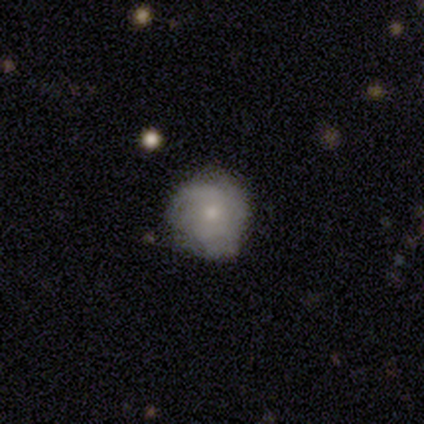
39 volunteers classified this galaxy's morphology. A featured or disk galaxy (49%) with no bar (79%), tight (60%) spiral arms (79%) and a small central bulge (79%). Merging: none (76%).